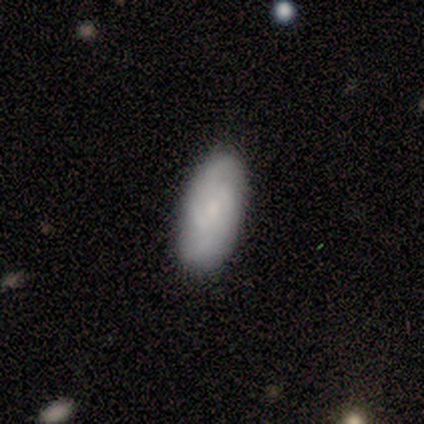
Morphology: type=featured or disk (60%); edge-on=no (100%); bar=no (67%); spiral arms=yes (100%); winding=medium (67%); arm count=4 (67%); bulge=moderate (67%); merging=none (100%).